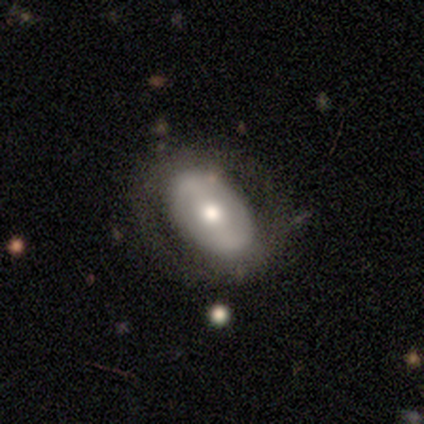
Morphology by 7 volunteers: Smooth or featured? featured or disk (57%)
Edge-on disk? no (100%)
Bar? no (50%)
Spiral arms? no (100%)
Bulge size? moderate (100%)
Merging? none (67%)